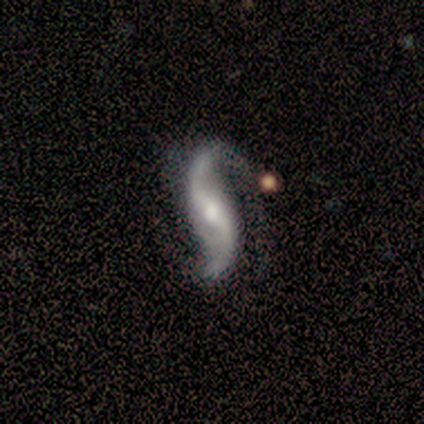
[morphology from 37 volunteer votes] type=featured or disk (95%); edge-on=no (100%); bar=weak (51%); spiral arms=yes (94%); winding=loose (88%); arm count=2 (91%); bulge=moderate (40%); merging=none (61%).